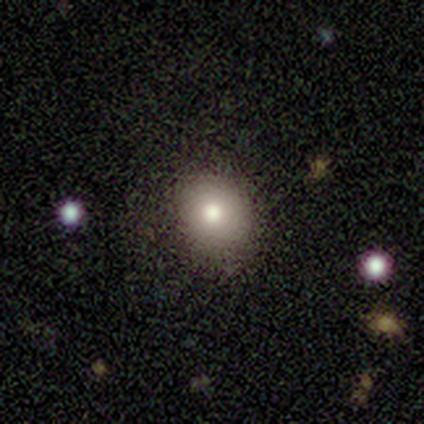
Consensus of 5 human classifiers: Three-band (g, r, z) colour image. It shows a smooth galaxy with no disk features (100%) that is round (60%). Merging: minor disturbance (60%).